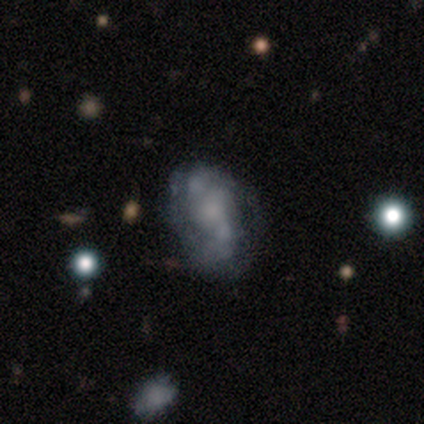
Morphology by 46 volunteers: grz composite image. It shows a featured or disk galaxy (67%) with no bar (63%), 2 (65%) medium (47%) spiral arms (57%) and no central bulge (37%). Merging: none (53%).